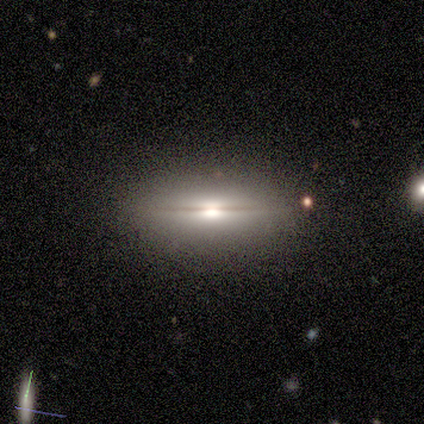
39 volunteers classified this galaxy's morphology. A featured or disk galaxy (62%) viewed edge-on (96%) with a rounded central bulge (96%).

Vote fractions:
- Smooth or featured? featured or disk: 62% / smooth: 33% / star or artifact: 5%
- Edge-on disk? yes: 96% / no: 4%
- Edge-on bulge? rounded: 96% / boxy: 4% / none: 0%
- Merging? none: 76% / minor disturbance: 19% / major disturbance: 5% / merger: 0%